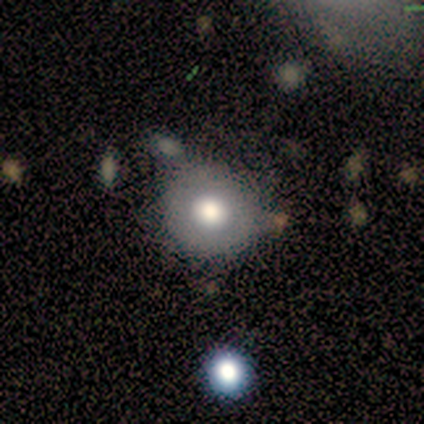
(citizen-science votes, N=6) Smooth or featured?
  - smooth: 83% *
  - featured or disk: 17%
  - star or artifact: 0%
How rounded?
  - round: 100% *
  - in between: 0%
  - cigar-shaped: 0%
Merging?
  - none: 83% *
  - merger: 17%
  - minor disturbance: 0%
  - major disturbance: 0%